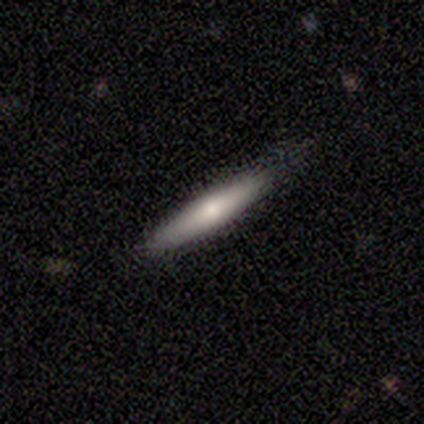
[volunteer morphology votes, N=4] A smooth galaxy with no disk features (100%) that is cigar-shaped (100%).

Vote fractions:
- Smooth or featured? smooth: 100% / featured or disk: 0% / star or artifact: 0%
- How rounded? cigar-shaped: 100% / round: 0% / in between: 0%
- Merging? none: 75% / minor disturbance: 25% / major disturbance: 0% / merger: 0%